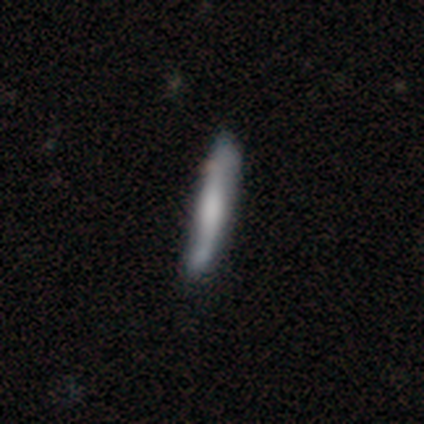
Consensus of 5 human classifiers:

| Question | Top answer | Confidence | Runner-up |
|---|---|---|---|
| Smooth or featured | featured or disk | 80% | smooth (20%) |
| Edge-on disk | yes | 50% | tied: no (50%) |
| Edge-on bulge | boxy | 100% | — |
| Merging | minor disturbance | 60% | none (20%) |